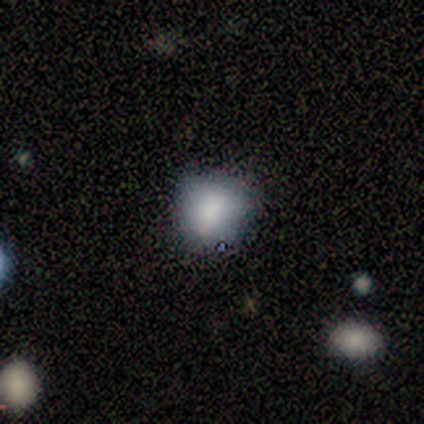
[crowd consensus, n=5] Overall: smooth (80%). How rounded: round (75%). Merging: none (60%; minor disturbance 20%).